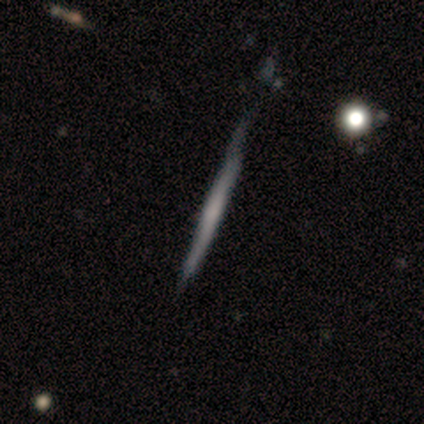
smooth 54%, featured or disk 46%, star or artifact 0%. Down the decision tree: how rounded — cigar-shaped (100%); merging — none (62%).